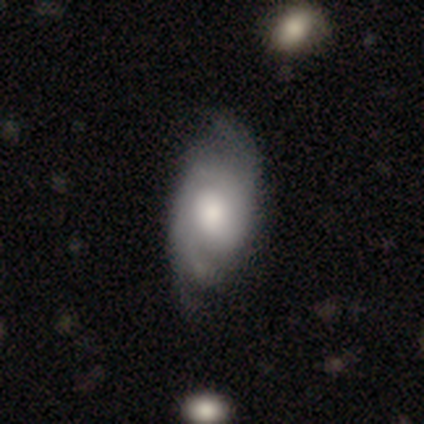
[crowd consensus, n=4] Volunteers were most divided on "spiral winding" (2-way tie): tight: 50%, medium: 50%, loose: 0%. More confident: edge-on disk — no (100%); bar — no (100%); spiral arm count — 2 (100%); merging — none (100%); smooth or featured — featured or disk (75%); spiral arms — yes (67%); bulge size — large (67%).